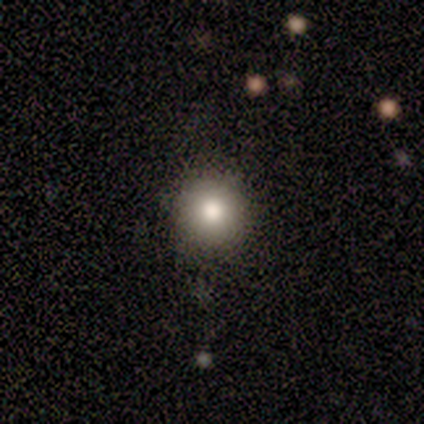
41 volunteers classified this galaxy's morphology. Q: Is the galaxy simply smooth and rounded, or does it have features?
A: smooth — 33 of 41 (80%).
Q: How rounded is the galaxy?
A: round — 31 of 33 (94%).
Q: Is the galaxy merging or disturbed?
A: none — 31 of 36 (86%).